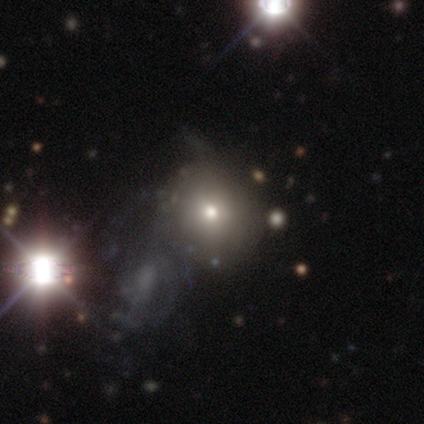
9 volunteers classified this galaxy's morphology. Volunteers were most divided on "merging" (3-way tie): none: 33%, major disturbance: 33%, merger: 33%, minor disturbance: 0%. Remaining: how rounded — round (100%); smooth or featured — smooth (44%).